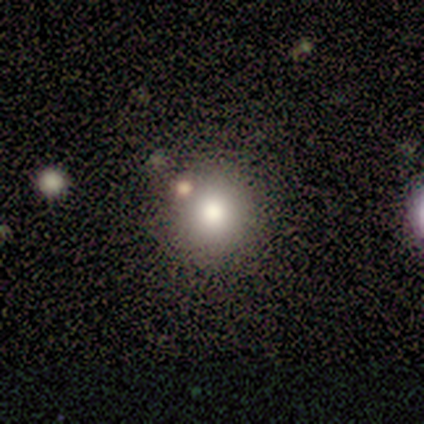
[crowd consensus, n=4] This appears to be a smooth galaxy with no disk features (75%) that is round (100%). Merging: none (67%).